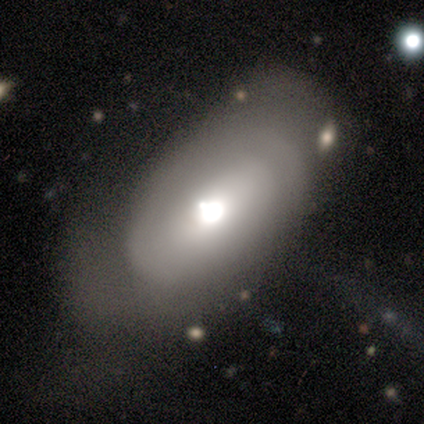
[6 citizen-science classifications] featured or disk 67%, smooth 33%, star or artifact 0%. Down the decision tree: edge-on disk — no (100%); bar — no (50%); spiral arms — yes (50%, tied with no); spiral arm count — can't tell (100%); spiral winding — tight (50%, tied with medium); bulge size — moderate (75%); merging — minor disturbance (50%).